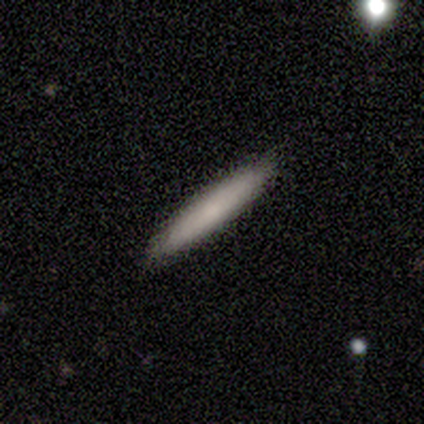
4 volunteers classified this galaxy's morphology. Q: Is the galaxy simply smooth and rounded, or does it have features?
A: smooth — 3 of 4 (75%).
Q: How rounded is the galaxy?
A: cigar-shaped — 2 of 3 (67%).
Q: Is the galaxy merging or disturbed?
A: none — 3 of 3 (100%).